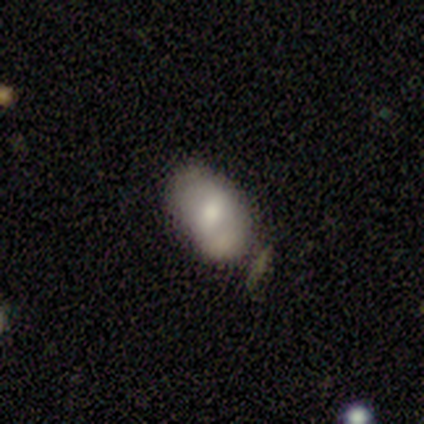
Smooth or featured? smooth (100%)
How rounded? in between (100%)
Merging? none (50%)